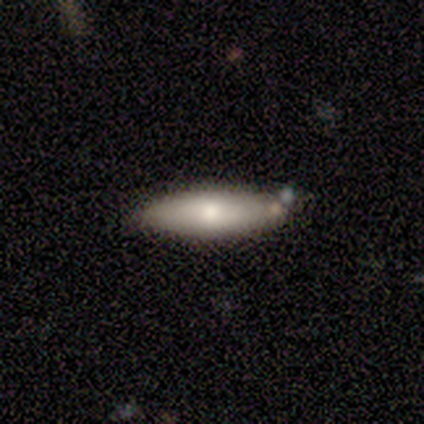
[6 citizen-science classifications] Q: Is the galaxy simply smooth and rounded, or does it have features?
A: smooth — 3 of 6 (50%, tied with featured or disk).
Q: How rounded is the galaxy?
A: cigar-shaped — 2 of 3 (67%).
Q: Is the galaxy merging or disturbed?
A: none — 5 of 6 (83%).